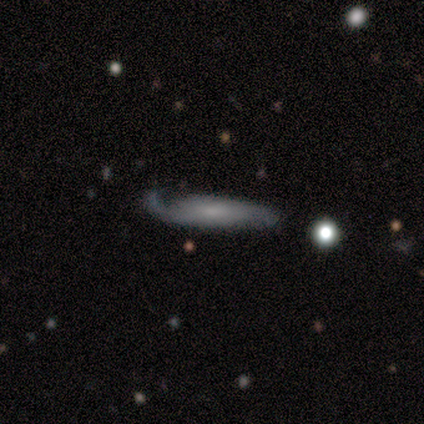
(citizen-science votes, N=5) smooth-or-featured: featured or disk: 60% | smooth: 40% | star or artifact: 0%
  disk-edge-on: no: 67% | yes: 33%
    bar: weak: 50% (tied) | no: 50% (tied) | strong: 0%
    has-spiral-arms: yes: 100% | no: 0%
      spiral-winding: tight: 50% (tied) | loose: 50% (tied) | medium: 0%
      spiral-arm-count: 1: 50% (tied) | 2: 50% (tied) | 3: 0% | 4: 0% | more than 4: 0% | can't tell: 0%
    bulge-size: small: 100% | dominant: 0% | large: 0% | moderate: 0% | none: 0%
  merging: none: 60% | minor disturbance: 20% | major disturbance: 20% | merger: 0%